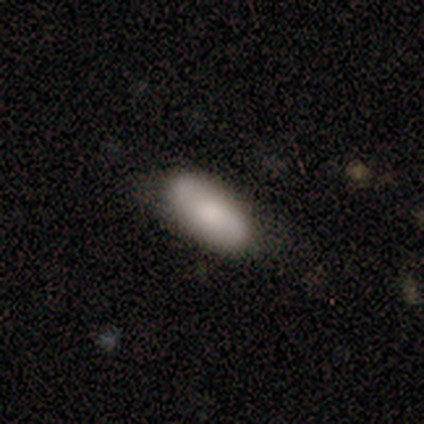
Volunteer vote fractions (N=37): Volunteers were most divided on "merging": none: 65%, minor disturbance: 26%, major disturbance: 6%, merger: 3%. More confident: how rounded — in between (79%); smooth or featured — smooth (76%).